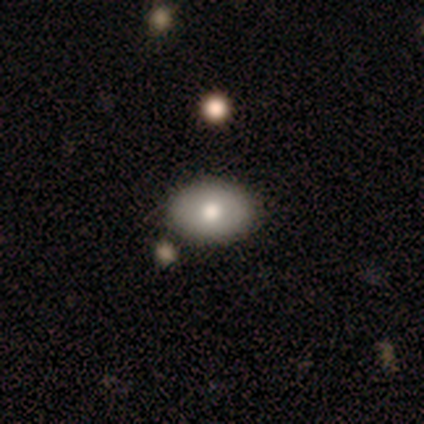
Q: Smooth or featured?
A: smooth (66%); runner-up: featured or disk (29%)
Q: How rounded?
A: in between (92%); runner-up: round (8%)
Q: Merging?
A: none (72%); runner-up: minor disturbance (6%)